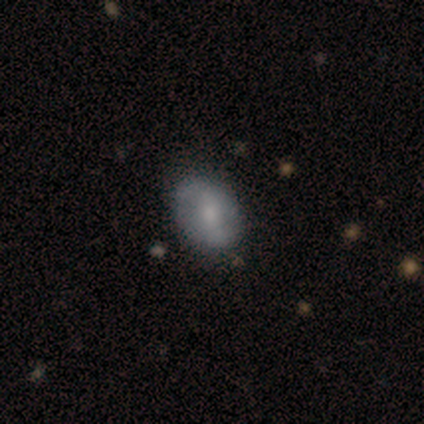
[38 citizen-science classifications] A featured or disk galaxy (61%) with a weak bar (45%), 2 (80%) loose (53%) spiral arms (68%) and a moderate central bulge (55%).

Vote fractions:
- Smooth or featured? featured or disk: 61% / smooth: 39% / star or artifact: 0%
- Edge-on disk? no: 96% / yes: 4%
- Bar? weak: 45% / no: 36% / strong: 18%
- Spiral arms? yes: 68% / no: 32%
- Spiral winding? loose: 53% / medium: 33% / tight: 13%
- Spiral arm count? 2: 80% / can't tell: 13% / 1: 7% / 3: 0% / 4: 0% / more than 4: 0%
- Bulge size? moderate: 55% / small: 36% / none: 9% / dominant: 0% / large: 0%
- Merging? none: 63% / minor disturbance: 11% / major disturbance: 3% / merger: 0%